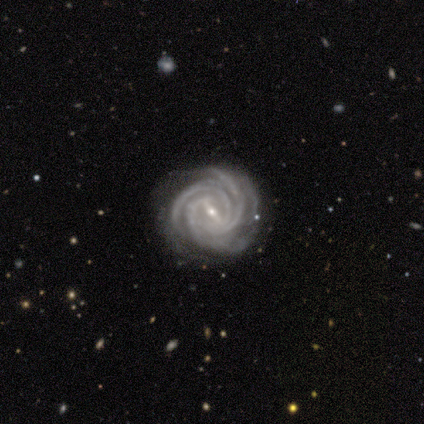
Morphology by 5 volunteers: Overall: featured or disk (100%). Edge-on disk: no (100%). Bar: strong (60%; weak 40%). Spiral arms: yes (100%). Spiral arm count: 3 (100%). Spiral winding: tight (80%). Bulge size: small (100%). Merging: none (100%).